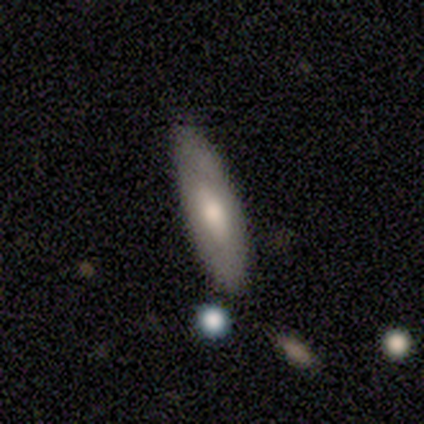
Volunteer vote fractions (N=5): smooth_or_featured: smooth (p=0.80) [alt: featured or disk p=0.20]
how_rounded: in between (p=0.50) [tied with: cigar-shaped p=0.50]
merging: none (p=0.80) [alt: minor disturbance p=0.20]